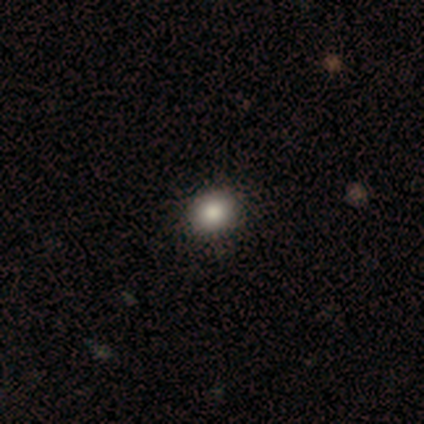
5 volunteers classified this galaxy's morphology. Smooth or featured? smooth (100%)
How rounded? in between (80%)
Merging? none (80%)